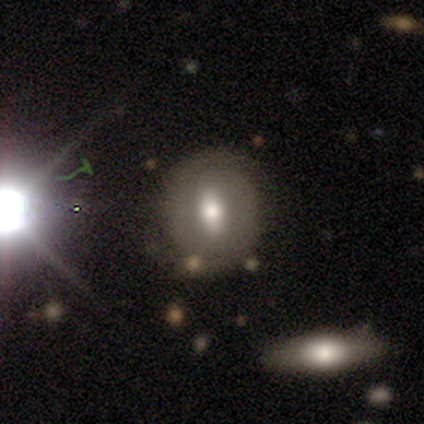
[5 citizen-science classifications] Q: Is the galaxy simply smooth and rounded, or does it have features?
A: featured or disk — 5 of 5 (100%).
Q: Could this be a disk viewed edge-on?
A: no — 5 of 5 (100%).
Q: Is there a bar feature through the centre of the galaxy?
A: weak — 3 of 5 (60%).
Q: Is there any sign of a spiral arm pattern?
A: yes — 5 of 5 (100%).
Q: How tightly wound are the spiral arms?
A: tight — 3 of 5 (60%).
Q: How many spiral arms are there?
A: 2 — 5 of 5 (100%).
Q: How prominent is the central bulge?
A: moderate — 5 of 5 (100%).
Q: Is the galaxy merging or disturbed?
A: none — 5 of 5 (100%).